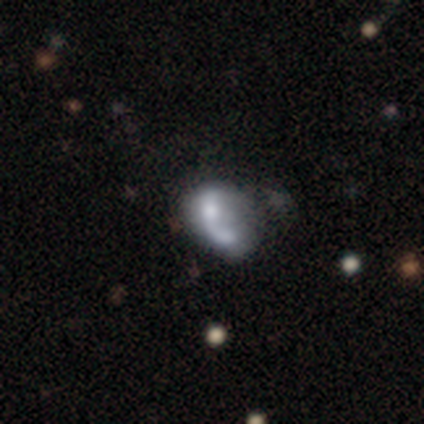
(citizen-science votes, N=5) This is likely a smooth galaxy (60%). How rounded: likely in between (67%). Merging: marginally major disturbance (40%, tied with merger).